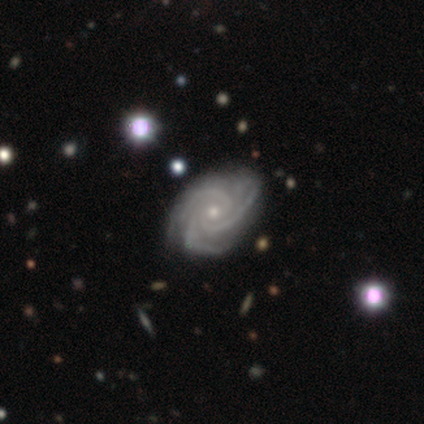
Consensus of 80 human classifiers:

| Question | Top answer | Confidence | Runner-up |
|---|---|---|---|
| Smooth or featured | featured or disk | 96% | smooth (2%) |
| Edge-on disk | no | 97% | yes (3%) |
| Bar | no | 79% | weak (19%) |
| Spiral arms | yes | 100% | — |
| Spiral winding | tight | 65% | medium (32%) |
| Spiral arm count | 3 | 84% | can't tell (8%) |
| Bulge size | small | 73% | moderate (25%) |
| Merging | none | 37% | minor disturbance (9%) |